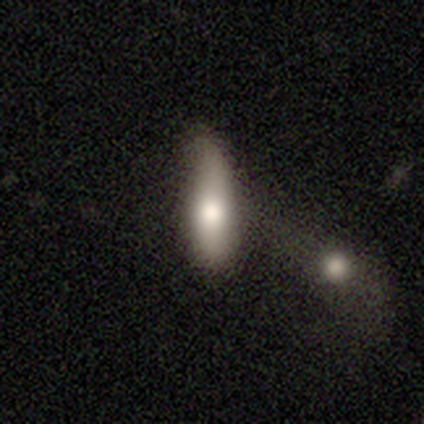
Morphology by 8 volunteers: smooth-or-featured: smooth: 75% | featured or disk: 25% | star or artifact: 0%
  how-rounded: cigar-shaped: 67% | in between: 33% | round: 0%
  merging: minor disturbance: 75% | merger: 25% | none: 0% | major disturbance: 0%